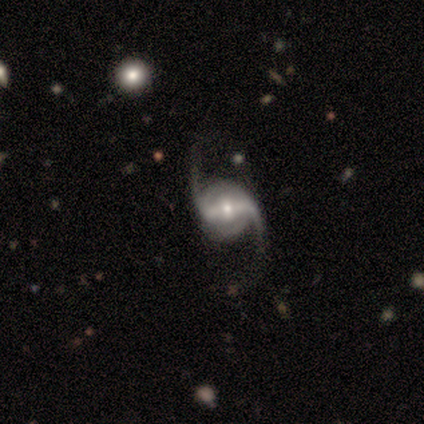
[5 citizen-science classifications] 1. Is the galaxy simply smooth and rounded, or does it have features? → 100% featured or disk, 0% smooth, 0% star or artifact.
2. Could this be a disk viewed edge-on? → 100% no, 0% yes.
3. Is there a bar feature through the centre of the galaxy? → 100% strong, 0% weak, 0% no.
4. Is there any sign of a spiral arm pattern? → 100% yes, 0% no.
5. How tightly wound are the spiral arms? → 100% loose, 0% tight, 0% medium.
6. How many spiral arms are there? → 100% 2, 0% 1, 0% 3, 0% 4, 0% more than 4, 0% can't tell.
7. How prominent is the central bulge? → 60% moderate, 20% large, 20% small, 0% dominant, 0% none.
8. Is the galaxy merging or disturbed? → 60% none, 20% minor disturbance, 20% major disturbance, 0% merger.